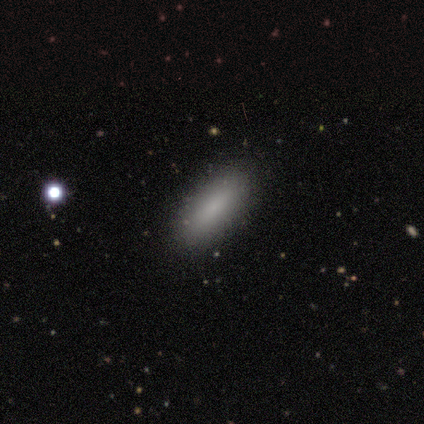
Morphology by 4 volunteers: This is likely a smooth galaxy (75%). How rounded: clearly in between (100%). Merging: clearly none (100%).